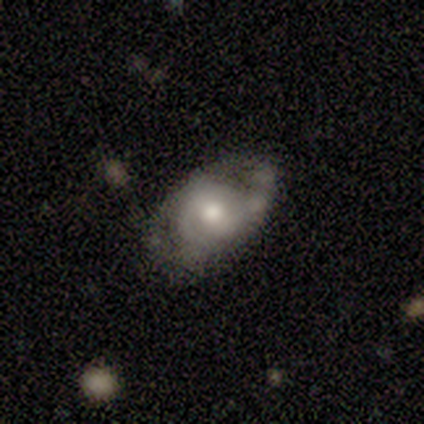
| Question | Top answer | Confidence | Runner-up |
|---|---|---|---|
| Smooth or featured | featured or disk | 84% | smooth (16%) |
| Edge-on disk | no | 88% | yes (12%) |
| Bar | weak | 46% | no (36%) |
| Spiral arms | yes | 86% | no (14%) |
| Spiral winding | tight | 38% | medium (33%) |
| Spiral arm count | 2 | 46% | 1 (29%) |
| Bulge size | moderate | 61% | large (21%) |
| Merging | none | 37% | minor disturbance (29%) |